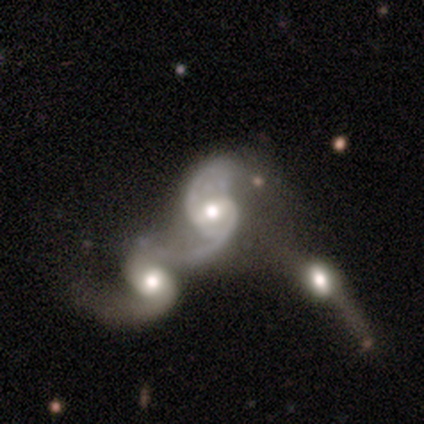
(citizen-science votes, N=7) Smooth or featured: featured or disk — 100%
Edge-on disk: no — 100%
Bar: weak — 57% (strong — 29%)
Spiral arms: yes — 86% (no — 14%)
Spiral winding: loose — 67% (medium — 33%)
Spiral arm count: 2 — 100%
Bulge size: moderate — 86% (large — 14%)
Merging: merger — 71% (major disturbance — 29%)